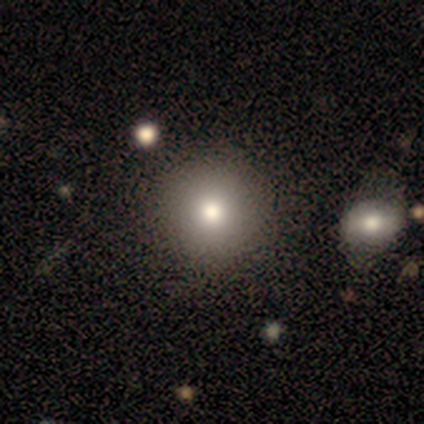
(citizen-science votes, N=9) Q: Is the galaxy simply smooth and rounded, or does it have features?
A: smooth — 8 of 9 (89%).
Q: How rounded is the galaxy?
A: round — 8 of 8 (100%).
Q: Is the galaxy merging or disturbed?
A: none — 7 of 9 (78%).